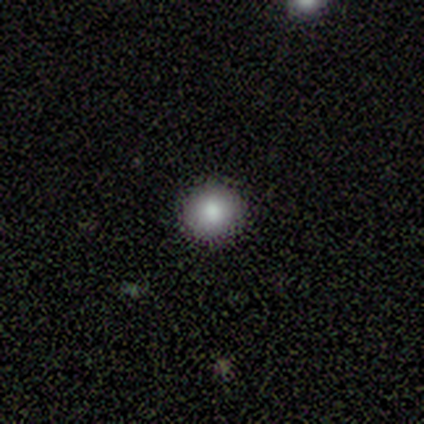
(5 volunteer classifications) Smooth or featured? 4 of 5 (80%) said smooth. How rounded? 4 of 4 (100%) said round. Merging? 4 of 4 (100%) said none.